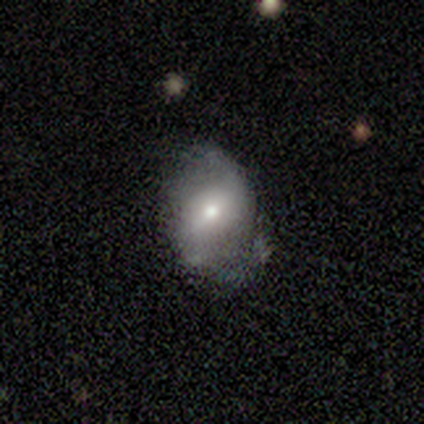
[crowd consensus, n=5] Smooth or featured?
  - featured or disk: 60% *
  - smooth: 40%
  - star or artifact: 0%
Edge-on disk?
  - no: 100% *
  - yes: 0%
Bar?
  - no: 67% *
  - weak: 33%
  - strong: 0%
Spiral arms?
  - no: 67% *
  - yes: 33%
Bulge size?
  - moderate: 67% *
  - small: 33%
  - dominant: 0%
  - large: 0%
  - none: 0%
Merging?
  - none: 40% * (tied)
  - major disturbance: 40% * (tied)
  - minor disturbance: 20%
  - merger: 0%